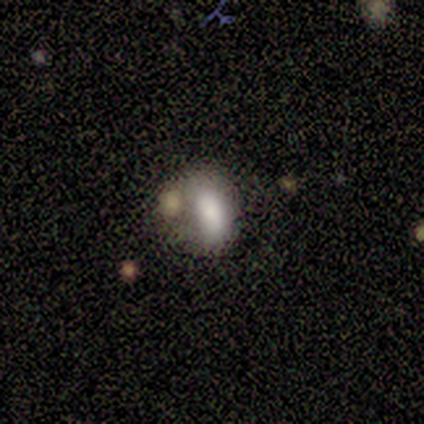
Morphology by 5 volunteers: A smooth galaxy with no disk features (80%) that is in between round and cigar-shaped (75%).

Vote fractions:
- Smooth or featured? smooth: 80% / featured or disk: 20% / star or artifact: 0%
- How rounded? in between: 75% / round: 25% / cigar-shaped: 0%
- Merging? none: 60% / major disturbance: 20% / merger: 20% / minor disturbance: 0%